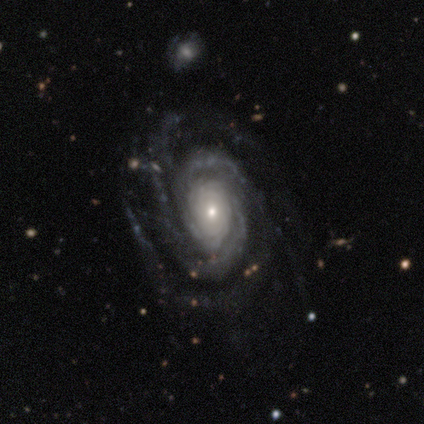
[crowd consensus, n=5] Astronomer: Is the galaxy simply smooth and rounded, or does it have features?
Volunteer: featured or disk — 100%.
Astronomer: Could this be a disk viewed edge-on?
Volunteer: no — 100%.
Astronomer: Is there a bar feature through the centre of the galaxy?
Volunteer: no — 80%.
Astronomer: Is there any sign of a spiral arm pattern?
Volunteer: yes — 100%.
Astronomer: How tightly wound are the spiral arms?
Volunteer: tight — 60% (runner-up: medium, 40%).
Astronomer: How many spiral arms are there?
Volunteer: can't tell — 40% (runner-up: 2, 20%).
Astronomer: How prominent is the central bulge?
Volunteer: small — 60% (runner-up: moderate, 40%).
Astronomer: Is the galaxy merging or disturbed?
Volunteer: none — 60%.